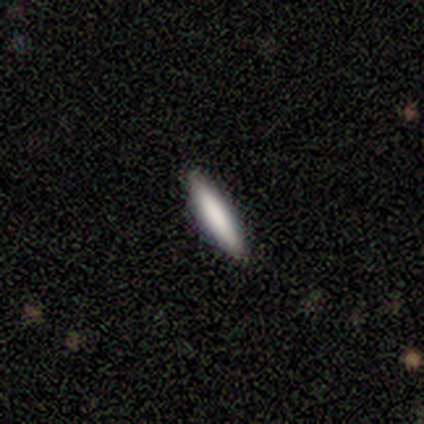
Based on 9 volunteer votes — Volunteers were most divided on "smooth or featured": smooth: 67%, featured or disk: 33%, star or artifact: 0%. More confident: merging — none (100%); how rounded — cigar-shaped (83%).